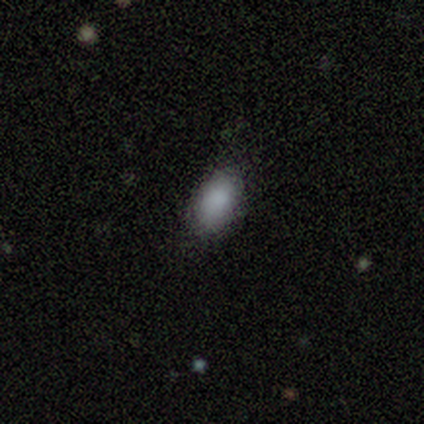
Morphology: type=smooth (100%); roundness=in between (100%); merging=none (75%).